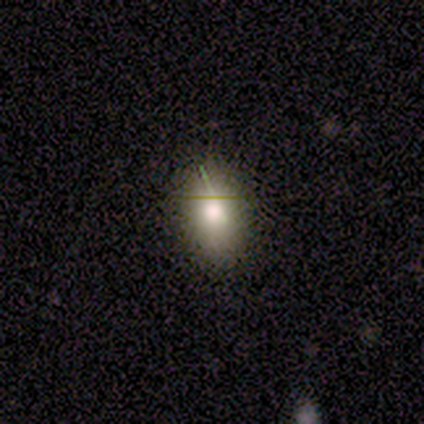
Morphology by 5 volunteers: type=smooth (80%); roundness=in between (75%); merging=none (60%).